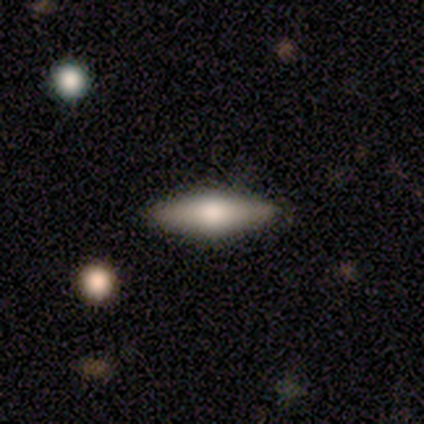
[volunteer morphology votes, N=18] type=smooth (56%); roundness=in between (50%, tied with cigar-shaped); merging=none (76%).